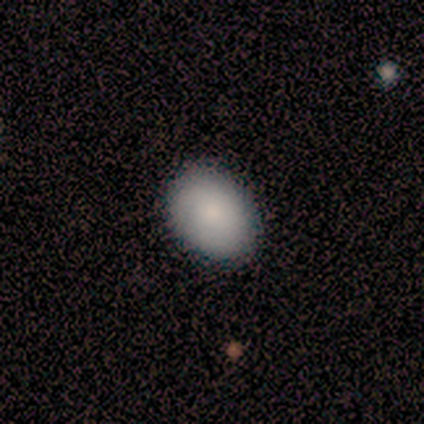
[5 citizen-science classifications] smooth 80%, featured or disk 20%, star or artifact 0%. Down the decision tree: how rounded — in between (75%); merging — none (100%).